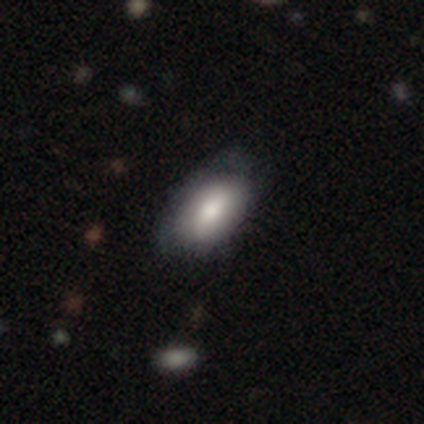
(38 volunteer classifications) Smooth or featured? smooth (79%)
How rounded? in between (97%)
Merging? none (37%)